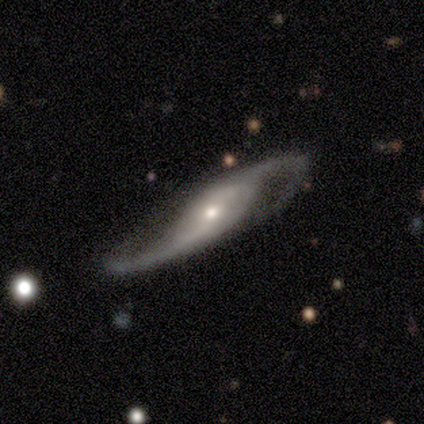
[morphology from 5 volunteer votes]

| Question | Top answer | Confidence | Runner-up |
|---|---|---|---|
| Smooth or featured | featured or disk | 100% | — |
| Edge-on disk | no | 100% | — |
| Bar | weak | 40% | tied: no (40%) |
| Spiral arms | yes | 100% | — |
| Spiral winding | medium | 40% | tied: loose (40%) |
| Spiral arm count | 2 | 80% | can't tell (20%) |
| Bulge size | moderate | 80% | small (20%) |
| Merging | none | 80% | major disturbance (20%) |